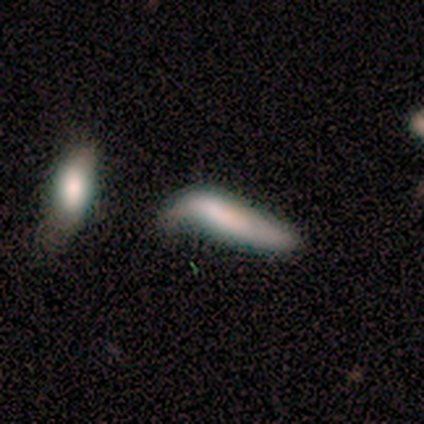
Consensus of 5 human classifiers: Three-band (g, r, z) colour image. It shows a smooth galaxy with no disk features (80%) that is cigar-shaped (100%). Merging: major disturbance (60%).